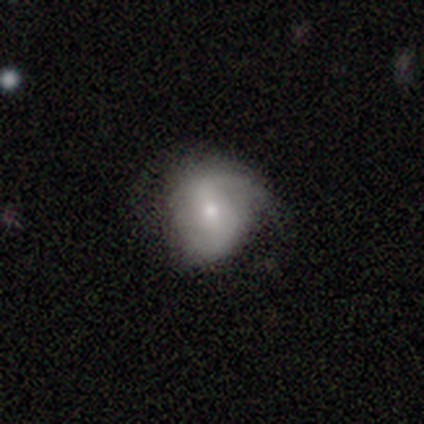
Morphology: type=smooth (50%); roundness=round (62%); merging=none (43%).